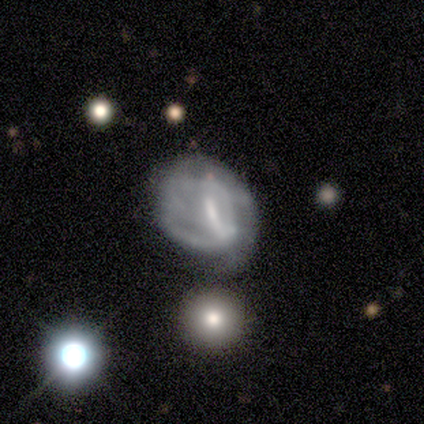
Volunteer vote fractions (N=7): Smooth or featured? featured or disk (86%)
Edge-on disk? no (100%)
Bar? strong (33%, tied with weak and no)
Spiral arms? no (67%)
Bulge size? moderate (50%, tied with small)
Merging? minor disturbance (50%, tied with major disturbance)